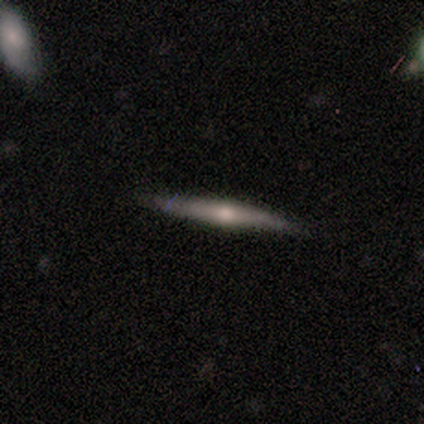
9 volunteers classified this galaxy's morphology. featured or disk 78%, smooth 22%, star or artifact 0%. Down the decision tree: edge-on disk — yes (100%); edge-on bulge — rounded (100%); merging — none (78%).